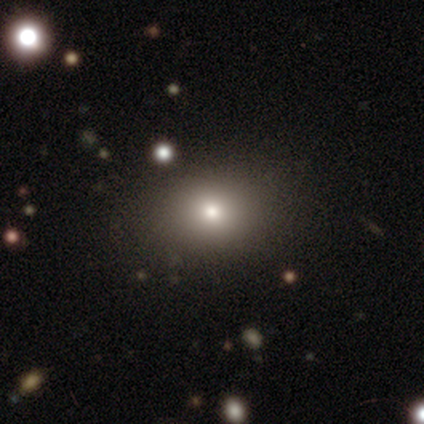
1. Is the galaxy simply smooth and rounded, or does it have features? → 77% smooth, 15% featured or disk, 8% star or artifact.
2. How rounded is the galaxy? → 53% round, 47% in between, 0% cigar-shaped.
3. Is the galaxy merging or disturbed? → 56% none, 8% minor disturbance, 6% merger, 0% major disturbance.